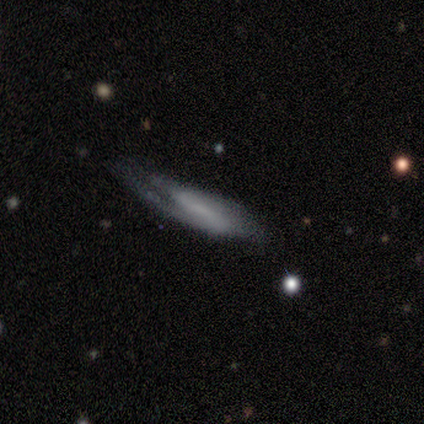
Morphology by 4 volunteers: Volunteers were most divided on "bulge size" (3-way tie): large: 33%, moderate: 33%, none: 33%, dominant: 0%, small: 0%. More confident: edge-on disk — no (100%); spiral winding — medium (100%); spiral arm count — 2 (100%); merging — none (100%); smooth or featured — featured or disk (75%); bar — strong (67%); spiral arms — yes (67%).